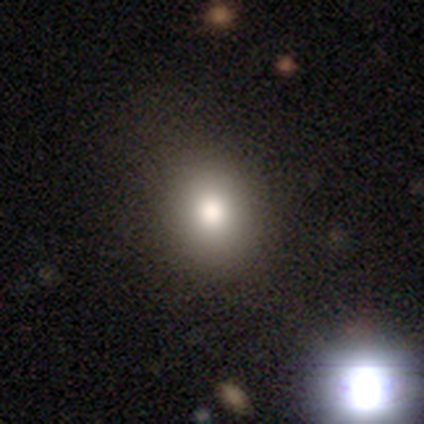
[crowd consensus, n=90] Smooth or featured?
  - smooth: 71% *
  - star or artifact: 18%
  - featured or disk: 11%
How rounded?
  - round: 59% *
  - in between: 39%
  - cigar-shaped: 2%
Merging?
  - none: 82% *
  - minor disturbance: 14%
  - merger: 3%
  - major disturbance: 1%